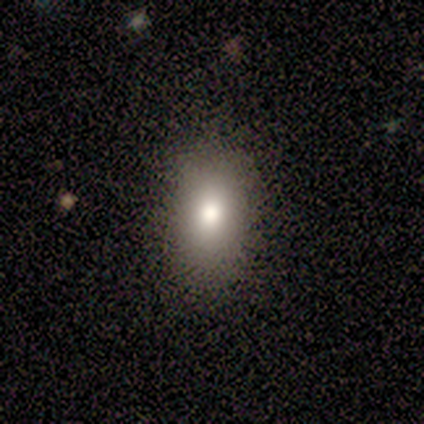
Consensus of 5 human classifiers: smooth-or-featured: smooth: 100% | featured or disk: 0% | star or artifact: 0%
  how-rounded: in between: 100% | round: 0% | cigar-shaped: 0%
  merging: none: 100% | minor disturbance: 0% | major disturbance: 0% | merger: 0%